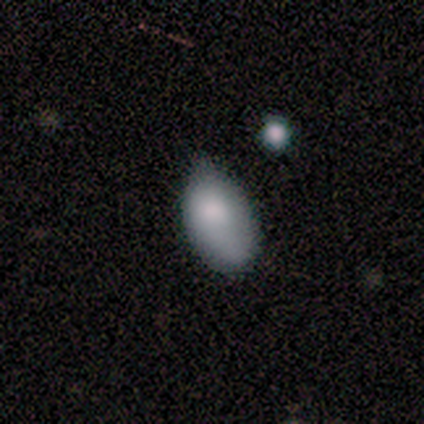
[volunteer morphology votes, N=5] A smooth galaxy with no disk features (100%) that is in between round and cigar-shaped (100%).

Vote fractions:
- Smooth or featured? smooth: 100% / featured or disk: 0% / star or artifact: 0%
- How rounded? in between: 100% / round: 0% / cigar-shaped: 0%
- Merging? none: 80% / minor disturbance: 20% / major disturbance: 0% / merger: 0%